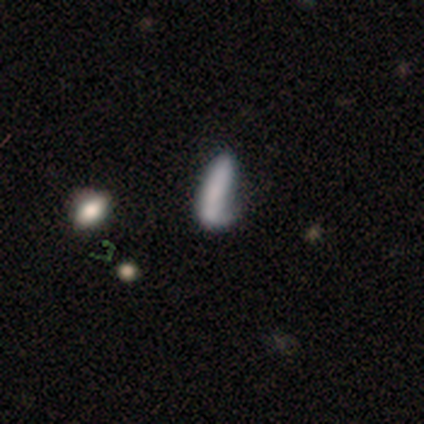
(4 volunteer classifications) Overall: smooth (50%; featured or disk 25%). How rounded: cigar-shaped (100%). Merging: minor disturbance (67%; none 33%).